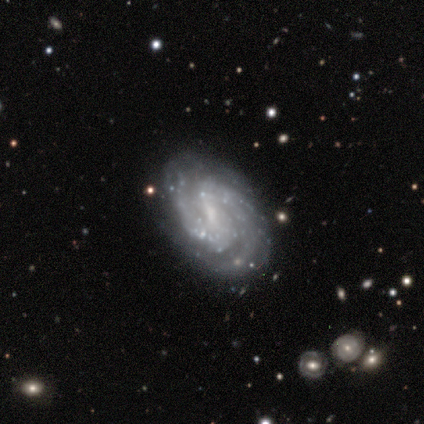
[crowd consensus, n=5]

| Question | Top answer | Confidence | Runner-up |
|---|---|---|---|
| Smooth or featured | featured or disk | 100% | — |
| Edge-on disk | no | 100% | — |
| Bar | strong | 60% | weak (40%) |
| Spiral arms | yes | 100% | — |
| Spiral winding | medium | 80% | tight (20%) |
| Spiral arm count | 2 | 60% | 3 (20%) |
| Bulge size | none | 60% | small (40%) |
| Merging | none | 80% | major disturbance (20%) |